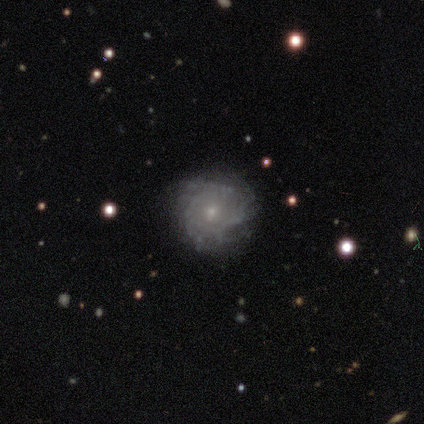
Smooth or featured: smooth — 33% (tied with featured or disk — 33%; star or artifact — 33%)
How rounded: round — 100%
Merging: none — 100%